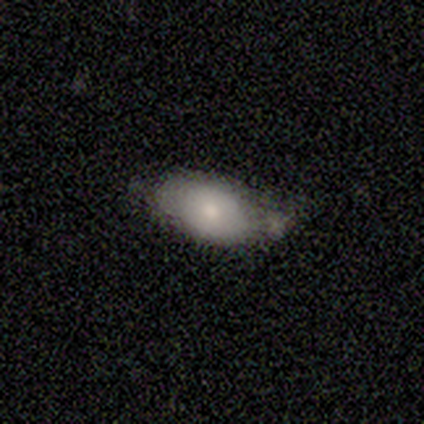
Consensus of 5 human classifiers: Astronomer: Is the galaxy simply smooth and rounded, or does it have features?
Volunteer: smooth — 80%.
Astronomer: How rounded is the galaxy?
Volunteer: in between — 100%.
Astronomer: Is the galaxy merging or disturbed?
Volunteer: minor disturbance — 60% (runner-up: none, 40%).